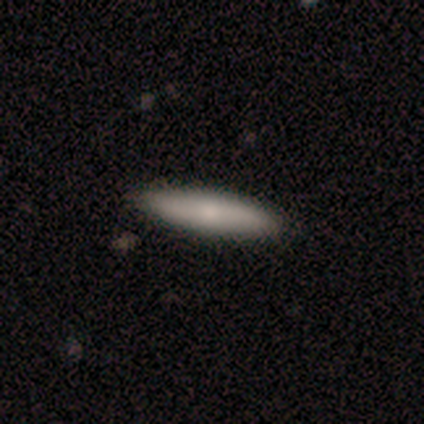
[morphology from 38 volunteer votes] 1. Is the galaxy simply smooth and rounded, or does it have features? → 76% smooth, 24% featured or disk, 0% star or artifact.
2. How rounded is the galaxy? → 83% cigar-shaped, 17% in between, 0% round.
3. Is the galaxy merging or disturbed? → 89% none, 11% minor disturbance, 0% major disturbance, 0% merger.